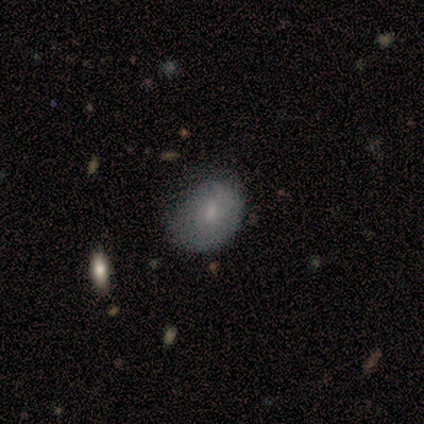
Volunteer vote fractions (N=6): A smooth galaxy with no disk features (50%, tied with featured or disk) that is in between round and cigar-shaped (67%). Merging: minor disturbance (83%).